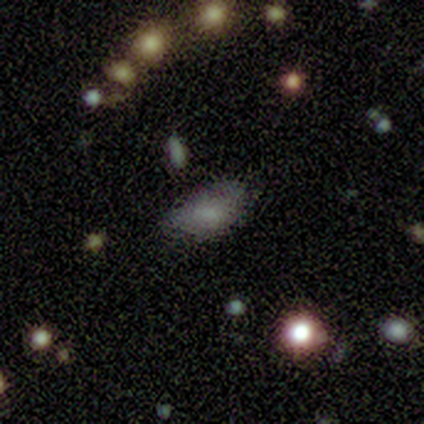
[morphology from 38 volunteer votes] This appears to be a smooth galaxy with no disk features (71%) that is in between round and cigar-shaped (93%). Merging: none (63%).